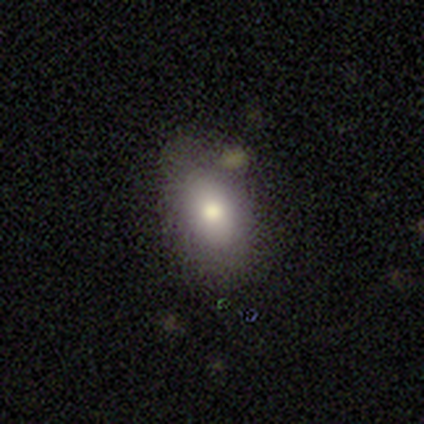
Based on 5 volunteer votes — smooth_or_featured: smooth (p=0.80) [alt: featured or disk p=0.20]
how_rounded: in between (p=0.75) [alt: round p=0.25]
merging: none (p=0.80) [alt: minor disturbance p=0.20]